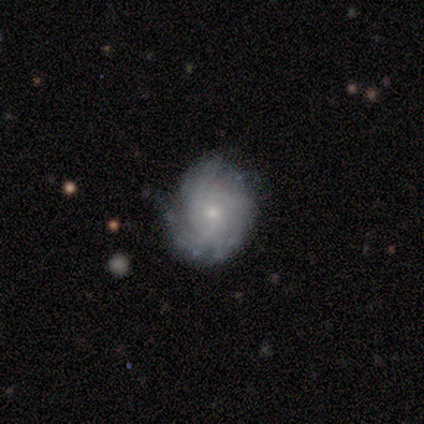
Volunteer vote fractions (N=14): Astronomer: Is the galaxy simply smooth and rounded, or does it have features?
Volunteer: featured or disk — 79%.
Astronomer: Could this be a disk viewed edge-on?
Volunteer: no — 100%.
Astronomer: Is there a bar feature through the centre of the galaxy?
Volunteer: no — 73%.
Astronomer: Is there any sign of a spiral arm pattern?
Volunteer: yes — 100%.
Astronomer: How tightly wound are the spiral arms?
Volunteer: tight — 64%.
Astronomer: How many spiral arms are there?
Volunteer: can't tell — 36% (runner-up: 3, 27%).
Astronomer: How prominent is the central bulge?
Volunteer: small — 91%.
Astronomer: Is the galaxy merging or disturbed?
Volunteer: none — 64%.